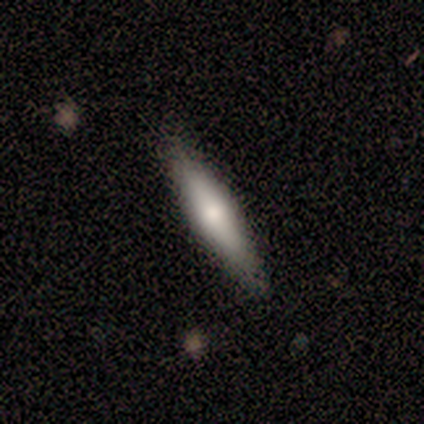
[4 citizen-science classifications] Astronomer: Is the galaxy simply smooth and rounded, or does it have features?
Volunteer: smooth — 75%.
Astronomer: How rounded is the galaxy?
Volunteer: cigar-shaped — 67%.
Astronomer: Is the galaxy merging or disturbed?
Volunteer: none — 100%.